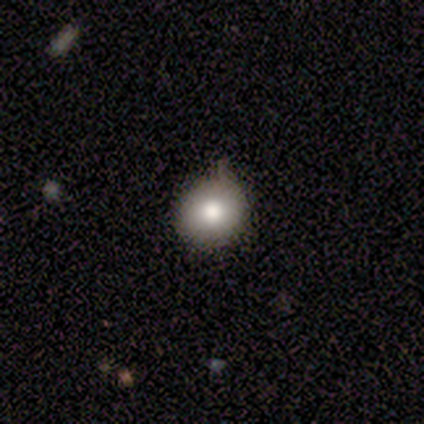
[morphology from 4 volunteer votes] type=smooth (100%); roundness=round (75%); merging=minor disturbance (50%).